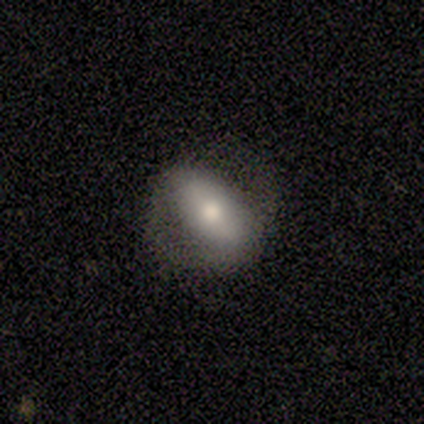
Overall: smooth (57%; featured or disk 43%). How rounded: in between (75%). Merging: none (86%).